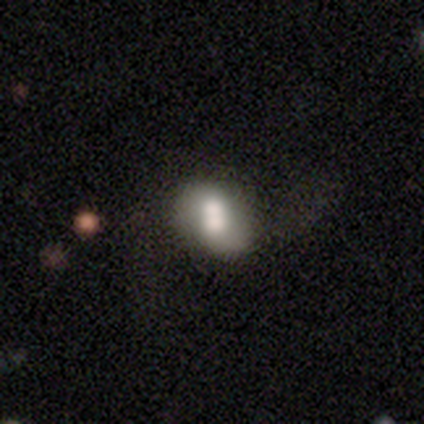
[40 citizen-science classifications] smooth 65%, featured or disk 35%, star or artifact 0%. Down the decision tree: how rounded — in between (69%); merging — merger (57%).